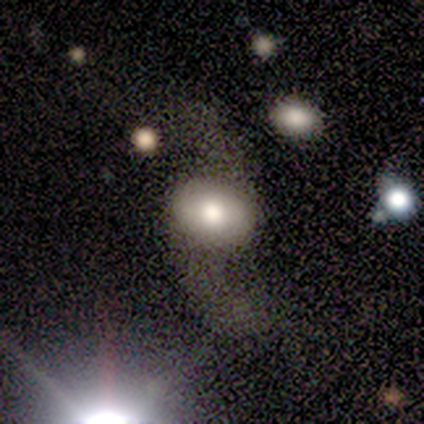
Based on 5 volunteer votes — This is likely a featured or disk galaxy (60%). It is clearly not viewed edge-on (100%). Bar: likely no (67%). Spiral arm pattern: likely yes (67%). Spiral arm count: clearly 2 (100%). Spiral winding: clearly loose (100%). Central bulge: likely large (67%). Merging: marginally minor disturbance (40%, tied with major disturbance).